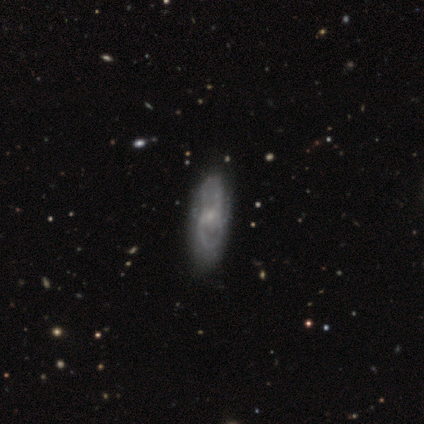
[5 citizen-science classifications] A featured or disk galaxy (60%) viewed edge-on (67%) with no central bulge (50%, tied with rounded).

Vote fractions:
- Smooth or featured? featured or disk: 60% / smooth: 40% / star or artifact: 0%
- Edge-on disk? yes: 67% / no: 33%
- Edge-on bulge? none: 50% (tied) / rounded: 50% (tied) / boxy: 0%
- Merging? none: 60% / minor disturbance: 20% / major disturbance: 20% / merger: 0%